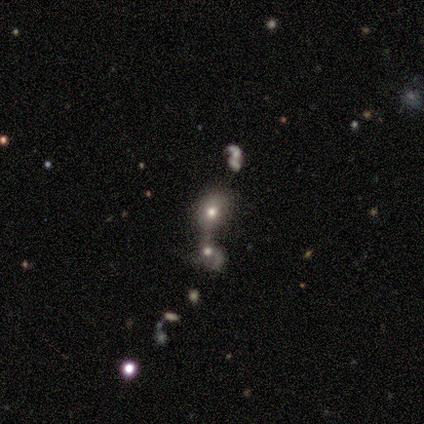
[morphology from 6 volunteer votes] A smooth galaxy with no disk features (50%) that is in between round and cigar-shaped (67%). Merging: merger (100%).